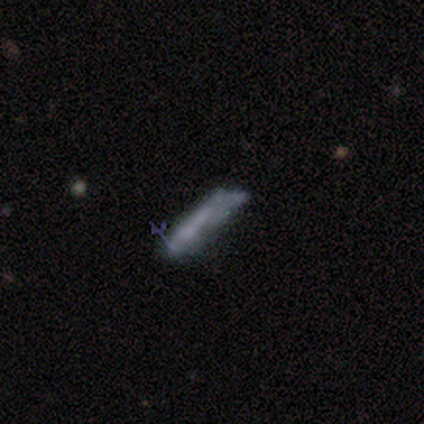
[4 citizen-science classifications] Smooth or featured: smooth — 50% (tied with featured or disk — 50%)
How rounded: in between — 50% (tied with cigar-shaped — 50%)
Merging: none — 50% (minor disturbance — 25%)